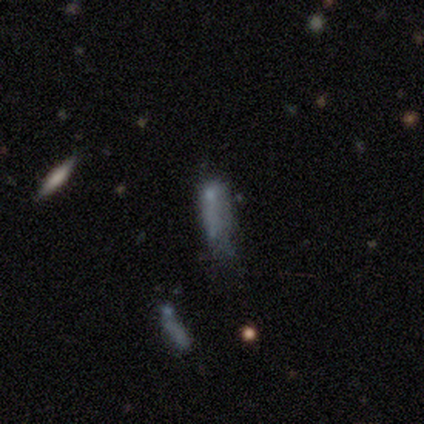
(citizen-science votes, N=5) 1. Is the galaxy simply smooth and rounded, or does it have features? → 60% featured or disk, 40% smooth, 0% star or artifact.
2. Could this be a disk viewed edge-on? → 67% no, 33% yes.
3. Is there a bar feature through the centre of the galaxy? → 100% no, 0% strong, 0% weak.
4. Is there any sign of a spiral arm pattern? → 100% no, 0% yes.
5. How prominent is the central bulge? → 50% small (tied), 50% none (tied), 0% dominant, 0% large, 0% moderate.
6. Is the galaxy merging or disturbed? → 40% none (tied), 40% merger (tied), 20% major disturbance, 0% minor disturbance.